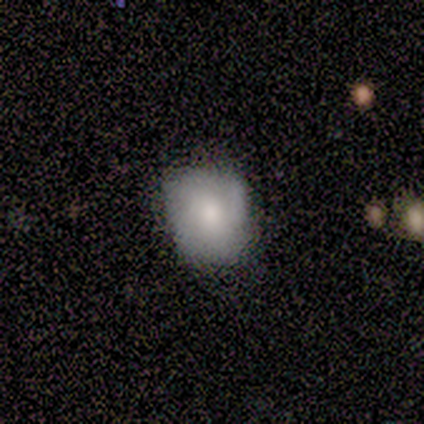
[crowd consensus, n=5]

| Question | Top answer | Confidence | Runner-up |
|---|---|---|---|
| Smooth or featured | smooth | 40% | tied: featured or disk (40%) |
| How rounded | round | 100% | — |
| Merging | none | 100% | — |